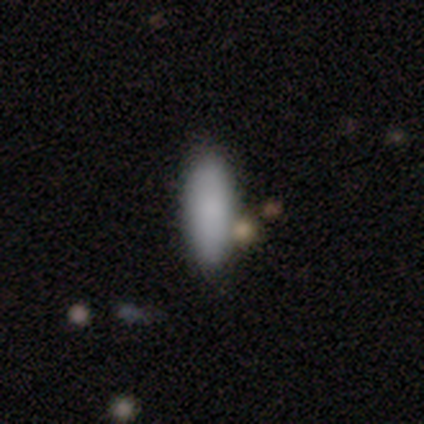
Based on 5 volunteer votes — Smooth or featured? smooth (60%)
How rounded? in between (67%)
Merging? none (100%)